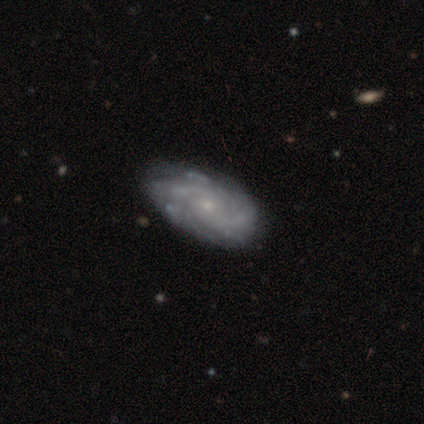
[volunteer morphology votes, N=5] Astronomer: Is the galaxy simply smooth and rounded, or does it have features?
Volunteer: featured or disk — 100%.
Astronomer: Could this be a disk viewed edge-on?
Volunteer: no — 100%.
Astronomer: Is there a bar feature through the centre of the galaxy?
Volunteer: no — 80%.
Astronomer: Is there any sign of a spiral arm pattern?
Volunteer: yes — 100%.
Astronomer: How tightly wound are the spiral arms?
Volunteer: tight — 60% (runner-up: medium, 40%).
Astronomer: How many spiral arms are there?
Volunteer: can't tell — 60%.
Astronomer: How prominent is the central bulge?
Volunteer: small — 80%.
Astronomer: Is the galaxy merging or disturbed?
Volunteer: none — 60% (runner-up: major disturbance, 40%).